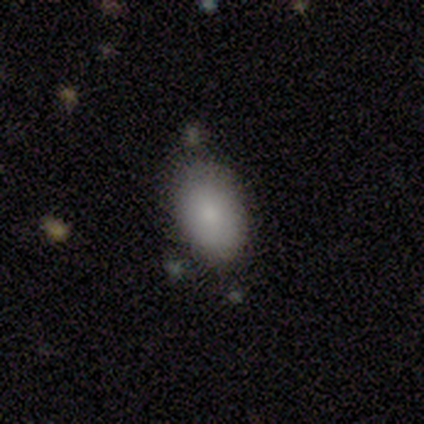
A smooth galaxy with no disk features (87%) that is in between round and cigar-shaped (88%).

Vote fractions:
- Smooth or featured? smooth: 87% / featured or disk: 8% / star or artifact: 5%
- How rounded? in between: 88% / round: 12% / cigar-shaped: 0%
- Merging? none: 72% / minor disturbance: 17% / major disturbance: 8% / merger: 3%